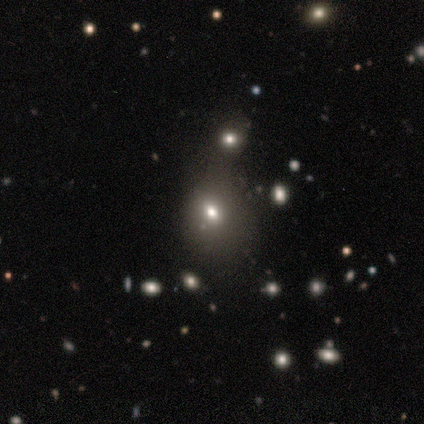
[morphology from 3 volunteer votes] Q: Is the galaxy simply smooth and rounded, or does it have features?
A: star or artifact — 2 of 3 (67%).